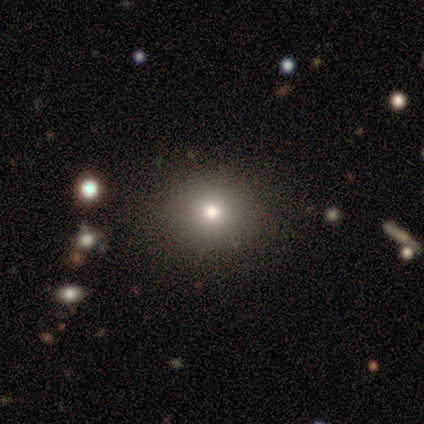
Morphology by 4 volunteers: Smooth or featured?
  - smooth: 75% *
  - featured or disk: 25%
  - star or artifact: 0%
How rounded?
  - round: 100% *
  - in between: 0%
  - cigar-shaped: 0%
Merging?
  - none: 100% *
  - minor disturbance: 0%
  - major disturbance: 0%
  - merger: 0%